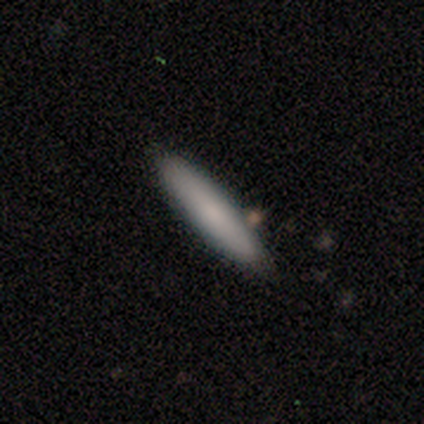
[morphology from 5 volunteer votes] smooth 80%, featured or disk 20%, star or artifact 0%. Down the decision tree: how rounded — cigar-shaped (75%); merging — none (60%).